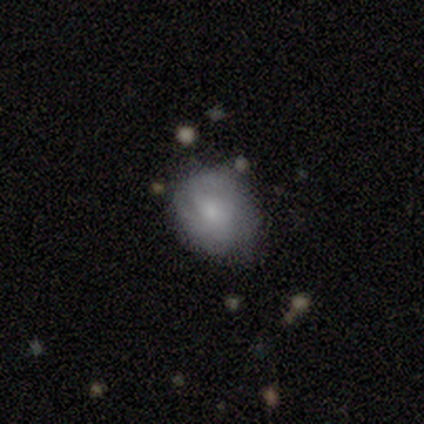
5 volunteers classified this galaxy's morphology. Q: Smooth or featured?
A: smooth (60%); runner-up: featured or disk (40%)
Q: How rounded?
A: round (100%)
Q: Merging?
A: minor disturbance (60%); runner-up: none (40%)